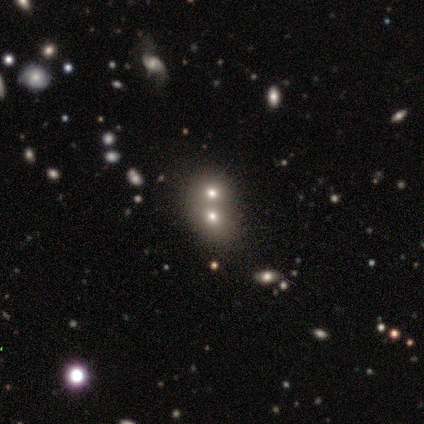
Smooth or featured: smooth — 60% (featured or disk — 20%)
How rounded: round — 100%
Merging: merger — 75% (none — 25%)